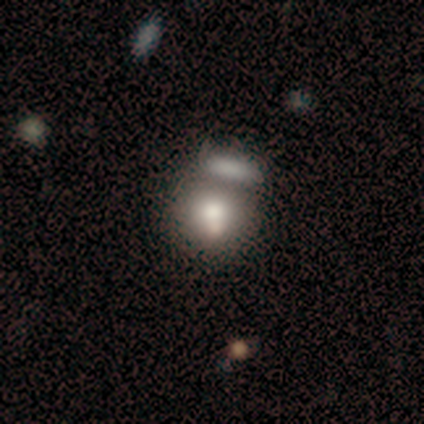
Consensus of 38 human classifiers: Q: Smooth or featured?
A: smooth (87%); runner-up: featured or disk (11%)
Q: How rounded?
A: round (76%); runner-up: in between (24%)
Q: Merging?
A: merger (46%); runner-up: none (43%)